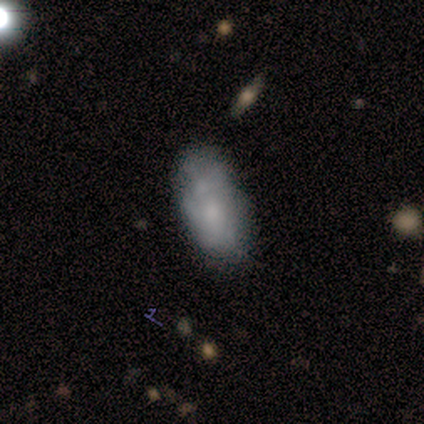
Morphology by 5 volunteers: Volunteers were most divided on "smooth or featured": smooth: 80%, featured or disk: 20%, star or artifact: 0%. More confident: how rounded — in between (100%); merging — none (80%).